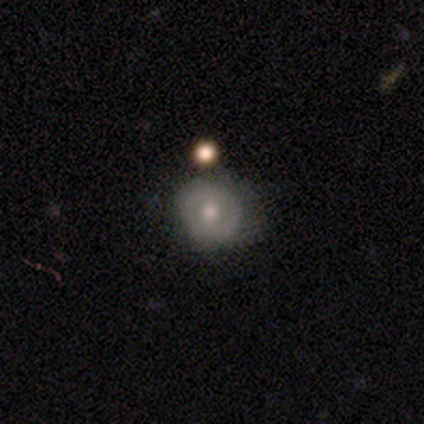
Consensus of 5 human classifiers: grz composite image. It shows a smooth galaxy with no disk features (80%) that is round (100%). Merging: none (40%, tied with minor disturbance).